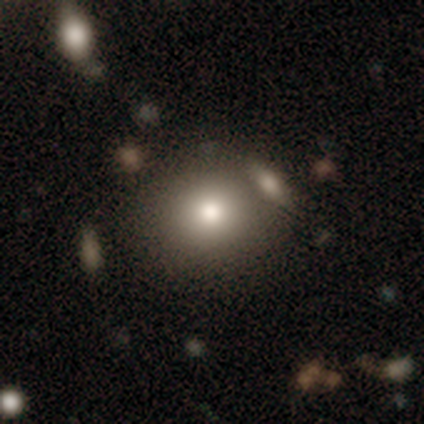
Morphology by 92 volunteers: A smooth galaxy with no disk features (79%) that is round (74%). Merging: none (61%).